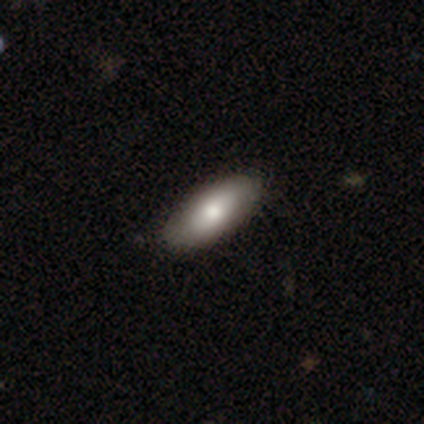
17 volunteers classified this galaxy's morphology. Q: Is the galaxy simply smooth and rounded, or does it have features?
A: smooth — 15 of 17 (88%).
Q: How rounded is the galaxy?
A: in between — 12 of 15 (80%).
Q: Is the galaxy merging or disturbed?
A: none — 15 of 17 (88%).